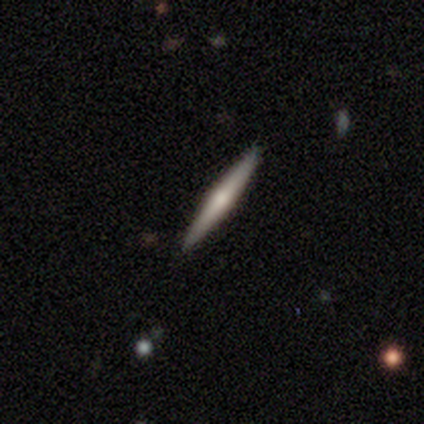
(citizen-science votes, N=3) Smooth or featured?
  - featured or disk: 67% *
  - star or artifact: 33%
  - smooth: 0%
Edge-on disk?
  - yes: 100% *
  - no: 0%
Edge-on bulge?
  - rounded: 100% *
  - boxy: 0%
  - none: 0%
Merging?
  - none: 100% *
  - minor disturbance: 0%
  - major disturbance: 0%
  - merger: 0%